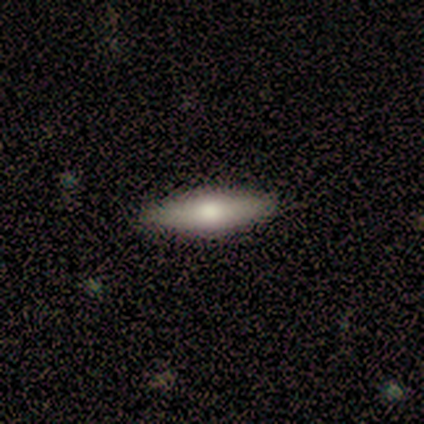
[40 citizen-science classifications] A smooth galaxy with no disk features (52%) that is cigar-shaped (57%). Merging: none (94%).